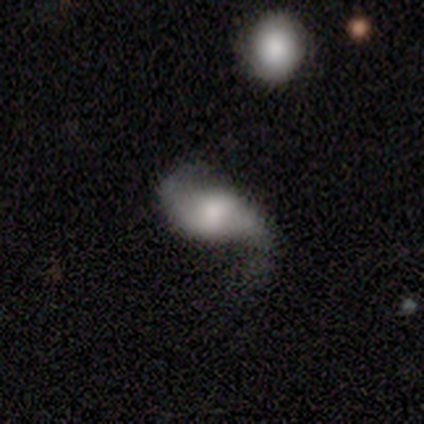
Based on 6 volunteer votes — This is clearly a featured or disk galaxy (83%). It is clearly not viewed edge-on (100%). Bar: likely strong (60%). Spiral arm pattern: clearly yes (100%). Spiral arm count: clearly 2 (100%). Spiral winding: clearly loose (100%). Central bulge: likely moderate (60%). Merging: likely minor disturbance (60%).